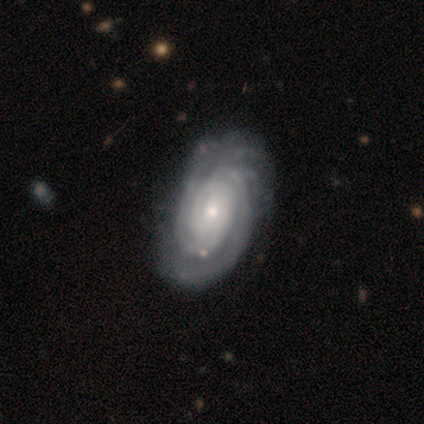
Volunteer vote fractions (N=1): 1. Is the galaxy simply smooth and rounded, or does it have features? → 100% featured or disk, 0% smooth, 0% star or artifact.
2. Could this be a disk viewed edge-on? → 100% no, 0% yes.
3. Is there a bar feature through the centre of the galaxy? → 100% no, 0% strong, 0% weak.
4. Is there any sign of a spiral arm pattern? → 100% yes, 0% no.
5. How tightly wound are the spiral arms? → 100% tight, 0% medium, 0% loose.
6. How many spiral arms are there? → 100% 4, 0% 1, 0% 2, 0% 3, 0% more than 4, 0% can't tell.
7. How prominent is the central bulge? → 100% small, 0% dominant, 0% large, 0% moderate, 0% none.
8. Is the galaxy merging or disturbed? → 100% none, 0% minor disturbance, 0% major disturbance, 0% merger.